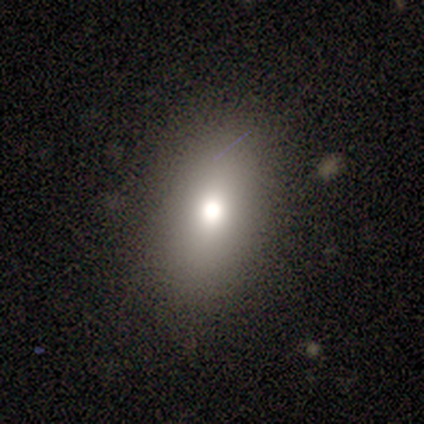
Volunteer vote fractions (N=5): smooth_or_featured: smooth (p=0.40) [tied with: featured or disk p=0.40]
how_rounded: in between (p=1.00)
merging: none (p=1.00)